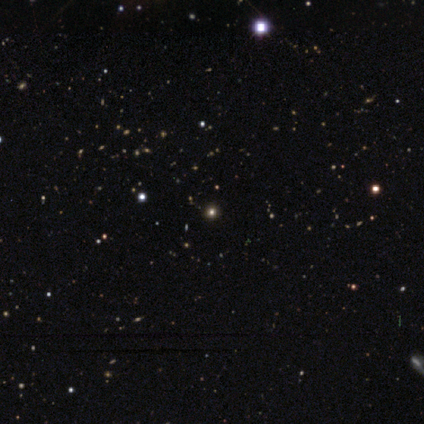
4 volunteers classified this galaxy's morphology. A smooth galaxy with no disk features (50%, tied with star or artifact) that is round (100%). Merging: none (100%).